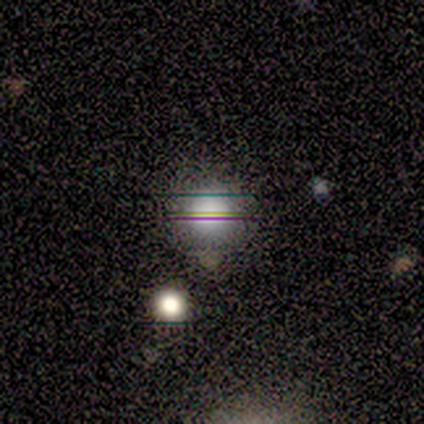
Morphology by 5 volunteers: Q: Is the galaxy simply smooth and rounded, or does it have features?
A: smooth — 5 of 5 (100%).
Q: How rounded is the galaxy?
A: round — 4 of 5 (80%).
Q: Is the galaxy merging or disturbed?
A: none — 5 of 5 (100%).